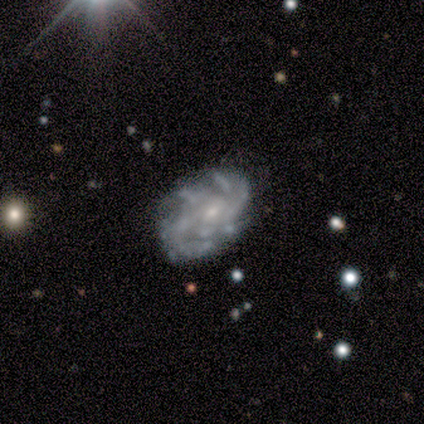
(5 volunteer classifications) Morphology: type=featured or disk (100%); edge-on=no (100%); bar=no (80%); spiral arms=yes (80%); winding=medium (50%); arm count=more than 4 (50%); bulge=small (100%); merging=none (80%).